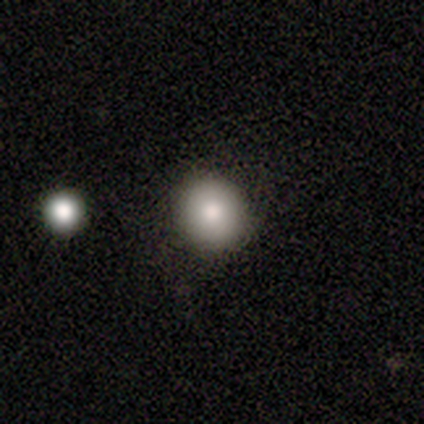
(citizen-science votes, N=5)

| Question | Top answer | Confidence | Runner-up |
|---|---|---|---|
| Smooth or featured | smooth | 100% | — |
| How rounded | round | 80% | in between (20%) |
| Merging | none | 100% | — |